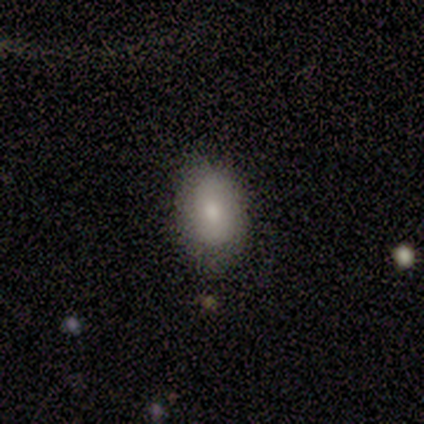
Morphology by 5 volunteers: A smooth galaxy with no disk features (80%) that is in between round and cigar-shaped (100%). Merging: none (80%).